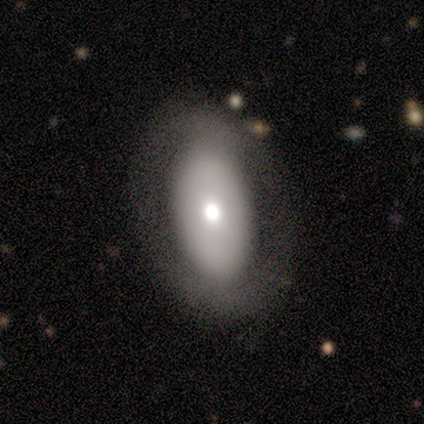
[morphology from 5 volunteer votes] type=smooth (40%, tied with featured or disk); roundness=in between (100%); merging=none (75%).